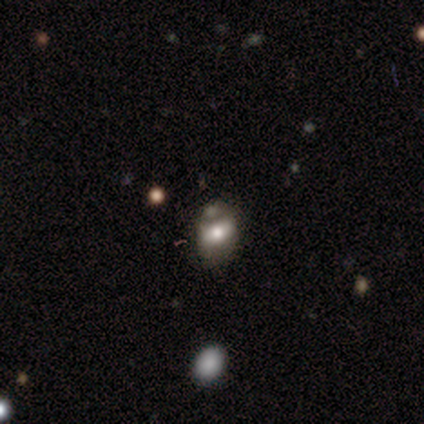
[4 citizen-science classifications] Smooth or featured?
  - featured or disk: 75% *
  - smooth: 25%
  - star or artifact: 0%
Edge-on disk?
  - no: 100% *
  - yes: 0%
Bar?
  - weak: 67% *
  - no: 33%
  - strong: 0%
Spiral arms?
  - no: 100% *
  - yes: 0%
Bulge size?
  - moderate: 67% *
  - small: 33%
  - dominant: 0%
  - large: 0%
  - none: 0%
Merging?
  - major disturbance: 50% *
  - none: 25%
  - minor disturbance: 25%
  - merger: 0%